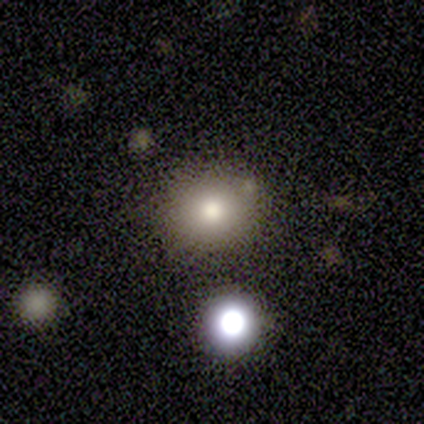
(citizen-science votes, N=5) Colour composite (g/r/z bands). It shows a smooth galaxy with no disk features (60%) that is in between round and cigar-shaped (67%). Merging: minor disturbance (67%).